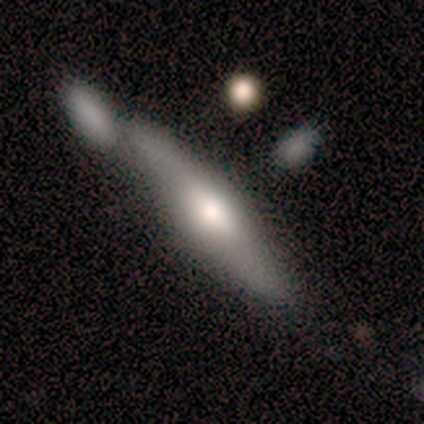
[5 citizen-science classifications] Q: Smooth or featured?
A: featured or disk (80%); runner-up: smooth (20%)
Q: Edge-on disk?
A: yes (100%)
Q: Edge-on bulge?
A: rounded (75%); runner-up: boxy (25%)
Q: Merging?
A: merger (60%); runner-up: none (40%)